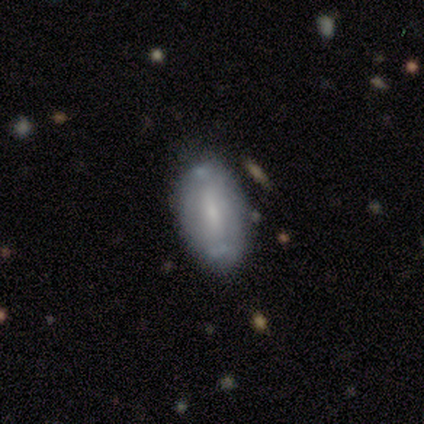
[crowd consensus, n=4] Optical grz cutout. It shows a smooth galaxy with no disk features (75%) that is in between round and cigar-shaped (100%). Merging: none (100%).